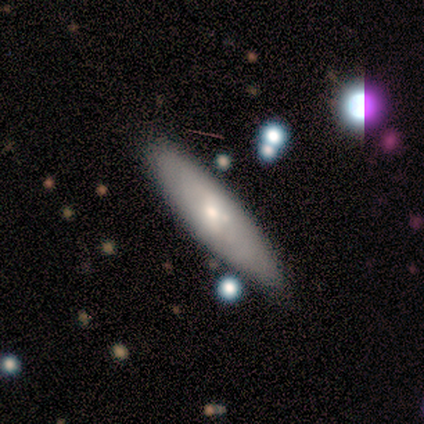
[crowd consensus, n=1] Smooth or featured?
  - smooth: 100% *
  - featured or disk: 0%
  - star or artifact: 0%
How rounded?
  - in between: 100% *
  - round: 0%
  - cigar-shaped: 0%
Merging?
  - none: 100% *
  - minor disturbance: 0%
  - major disturbance: 0%
  - merger: 0%